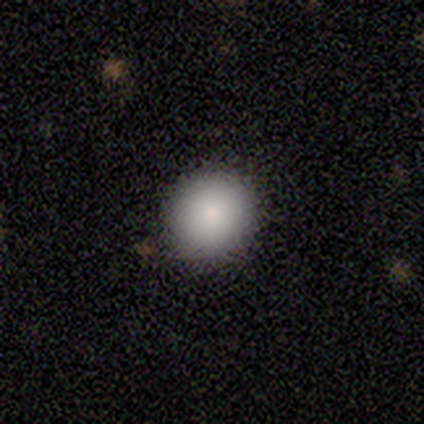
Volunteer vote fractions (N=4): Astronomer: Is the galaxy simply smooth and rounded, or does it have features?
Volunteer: smooth — 75%.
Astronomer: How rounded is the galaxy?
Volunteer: round — 100%.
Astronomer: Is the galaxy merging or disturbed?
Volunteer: none — 100%.